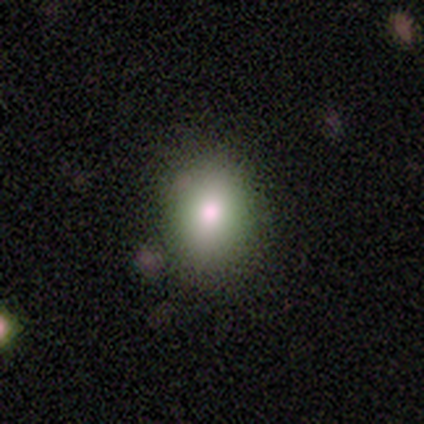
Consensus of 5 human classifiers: smooth-or-featured: smooth: 80% | star or artifact: 20% | featured or disk: 0%
  how-rounded: round: 75% | in between: 25% | cigar-shaped: 0%
  merging: none: 100% | minor disturbance: 0% | major disturbance: 0% | merger: 0%